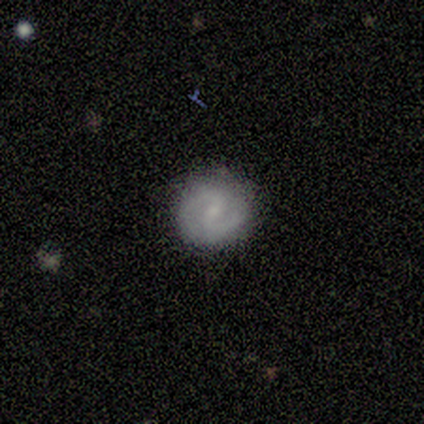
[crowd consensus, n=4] Smooth or featured? featured or disk (50%)
Edge-on disk? no (100%)
Bar? weak (50%, tied with no)
Spiral arms? yes (100%)
Spiral winding? medium (100%)
Spiral arm count? 2 (100%)
Bulge size? small (100%)
Merging? none (100%)